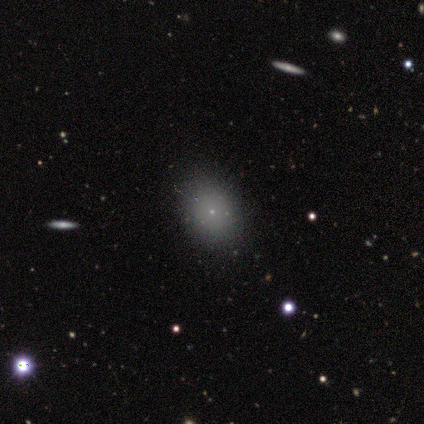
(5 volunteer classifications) A smooth galaxy with no disk features (80%) that is in between round and cigar-shaped (75%). Merging: none (100%).